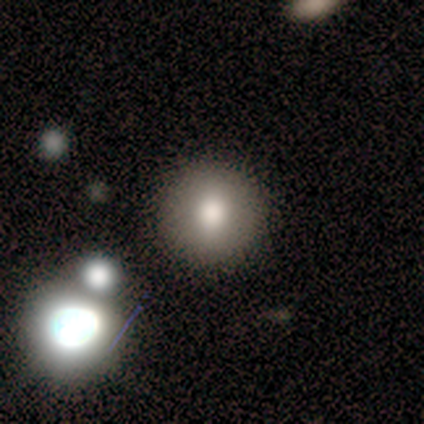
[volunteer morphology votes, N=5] Smooth or featured: smooth — 80% (star or artifact — 20%)
How rounded: round — 75% (in between — 25%)
Merging: none — 75% (minor disturbance — 25%)